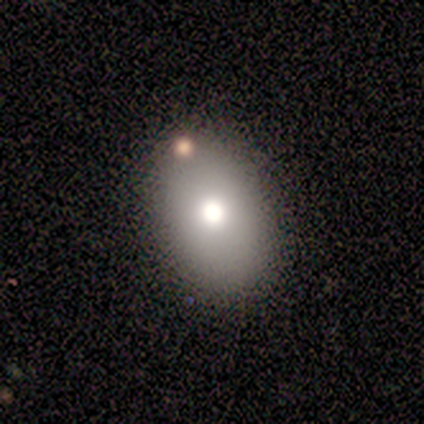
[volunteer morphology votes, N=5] type=smooth (60%); roundness=in between (100%); merging=none (80%).